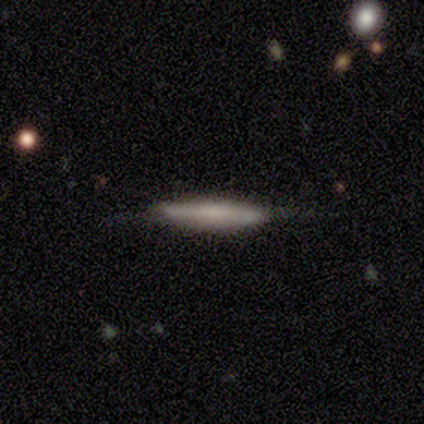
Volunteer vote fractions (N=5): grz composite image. It shows a smooth galaxy with no disk features (40%, tied with featured or disk) that is cigar-shaped (100%). Merging: minor disturbance (50%).